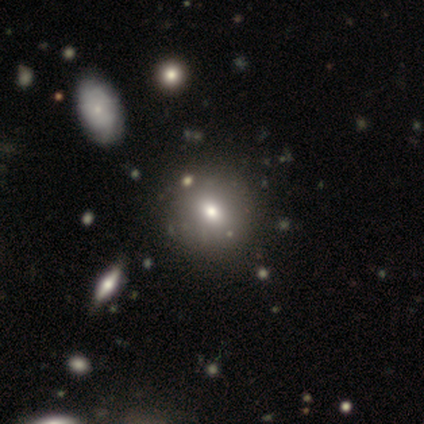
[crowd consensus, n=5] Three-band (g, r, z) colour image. It shows a star or artifact, not a galaxy (60%).